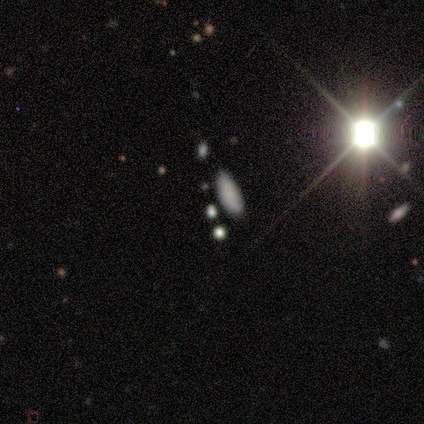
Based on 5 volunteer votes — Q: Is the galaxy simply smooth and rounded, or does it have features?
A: smooth — 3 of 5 (60%).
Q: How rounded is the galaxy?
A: in between — 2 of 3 (67%).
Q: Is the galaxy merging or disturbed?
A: none — 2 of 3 (67%).